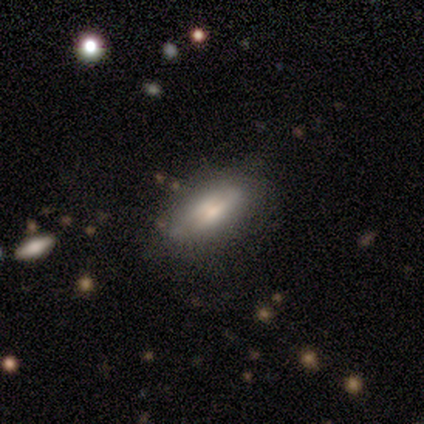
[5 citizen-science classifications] This appears to be a smooth galaxy with no disk features (60%) that is in between round and cigar-shaped (67%). Merging: none (80%).